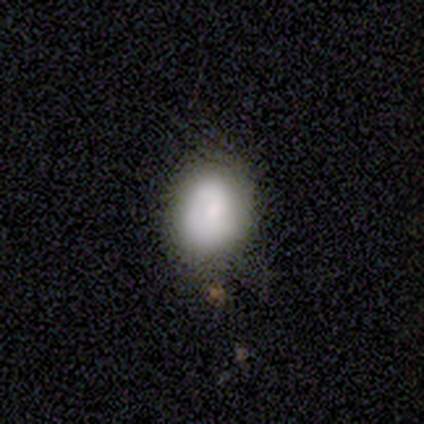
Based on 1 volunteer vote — Morphology: type=featured or disk (100%); edge-on=no (100%); bar=no (100%); spiral arms=yes (100%); winding=medium (100%); arm count=2 (100%); bulge=moderate (100%); merging=none (100%).